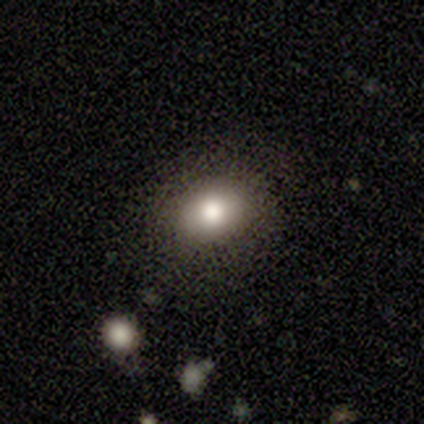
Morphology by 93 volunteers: This is likely a smooth galaxy (71%). How rounded: possibly in between (56%). Merging: clearly none (85%).